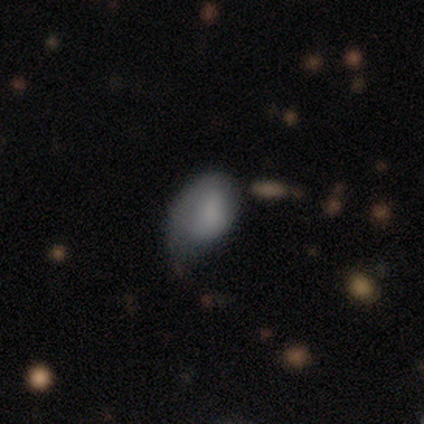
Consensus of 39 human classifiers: Overall: smooth (67%). How rounded: in between (88%). Merging: minor disturbance (56%; major disturbance 22%).